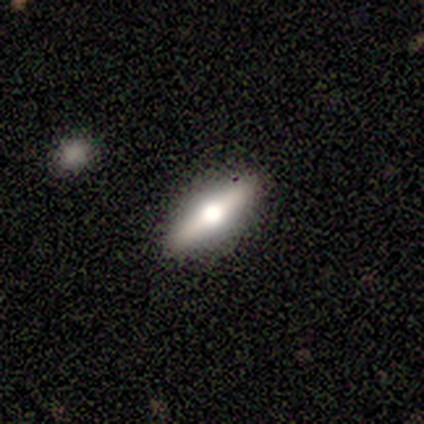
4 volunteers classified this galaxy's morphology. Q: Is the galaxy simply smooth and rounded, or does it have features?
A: featured or disk — 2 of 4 (50%).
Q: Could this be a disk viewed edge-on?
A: yes — 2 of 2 (100%).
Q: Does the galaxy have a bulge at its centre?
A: rounded — 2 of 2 (100%).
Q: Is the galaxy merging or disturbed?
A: none — 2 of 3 (67%).